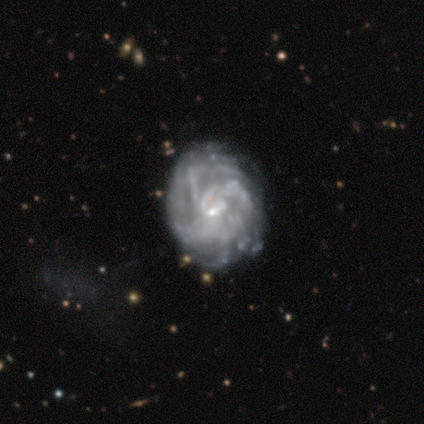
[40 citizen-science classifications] A featured or disk galaxy (92%) with no bar (73%), tight (68%) spiral arms (84%) and a small central bulge (78%).

Vote fractions:
- Smooth or featured? featured or disk: 92% / smooth: 5% / star or artifact: 2%
- Edge-on disk? no: 100% / yes: 0%
- Bar? no: 73% / weak: 24% / strong: 3%
- Spiral arms? yes: 84% / no: 16%
- Spiral winding? tight: 68% / medium: 23% / loose: 10%
- Spiral arm count? can't tell: 61% / 3: 13% / 4: 13% / more than 4: 13% / 1: 0% / 2: 0%
- Bulge size? small: 78% / none: 16% / moderate: 5% / dominant: 0% / large: 0%
- Merging? none: 72% / major disturbance: 15% / minor disturbance: 10% / merger: 3%